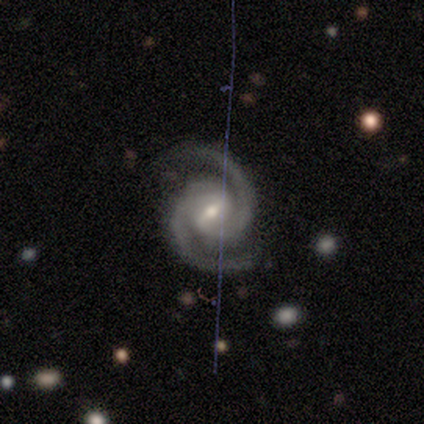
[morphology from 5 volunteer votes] Smooth or featured?
  - featured or disk: 80% *
  - star or artifact: 20%
  - smooth: 0%
Edge-on disk?
  - no: 100% *
  - yes: 0%
Bar?
  - weak: 75% *
  - strong: 25%
  - no: 0%
Spiral arms?
  - yes: 100% *
  - no: 0%
Spiral winding?
  - tight: 50% * (tied)
  - medium: 50% * (tied)
  - loose: 0%
Spiral arm count?
  - 2: 100% *
  - 1: 0%
  - 3: 0%
  - 4: 0%
  - more than 4: 0%
  - can't tell: 0%
Bulge size?
  - moderate: 75% *
  - small: 25%
  - dominant: 0%
  - large: 0%
  - none: 0%
Merging?
  - none: 100% *
  - minor disturbance: 0%
  - major disturbance: 0%
  - merger: 0%